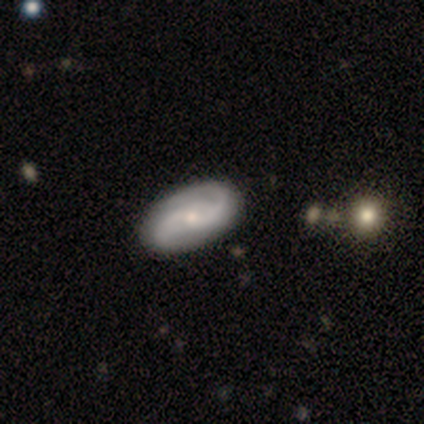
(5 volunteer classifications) Q: Smooth or featured?
A: featured or disk (100%)
Q: Edge-on disk?
A: no (100%)
Q: Bar?
A: weak (40%); tied with: no (40%)
Q: Spiral arms?
A: yes (100%)
Q: Spiral winding?
A: tight (40%); tied with: loose (40%)
Q: Spiral arm count?
A: 2 (80%); runner-up: 3 (20%)
Q: Bulge size?
A: small (80%); runner-up: moderate (20%)
Q: Merging?
A: none (100%)